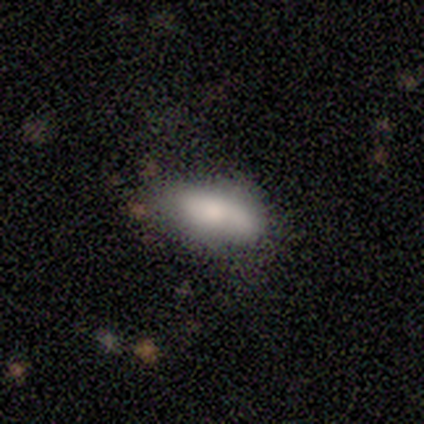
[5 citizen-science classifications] Volunteers were most divided on "merging": none: 60%, minor disturbance: 40%, major disturbance: 0%, merger: 0%. More confident: smooth or featured — smooth (100%); how rounded — in between (80%).